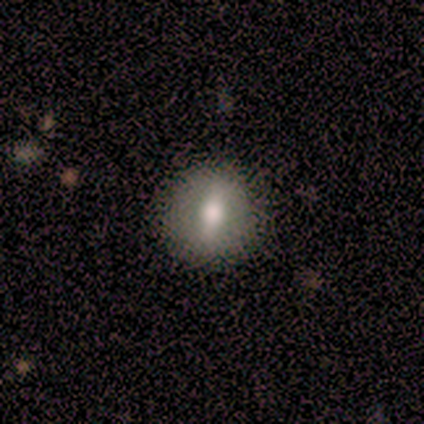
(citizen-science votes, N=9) Volunteers were most divided on "edge-on disk" (2-way tie): yes: 50%, no: 50%. More confident: merging — none (78%); smooth or featured — featured or disk (67%); edge-on bulge — rounded (67%).